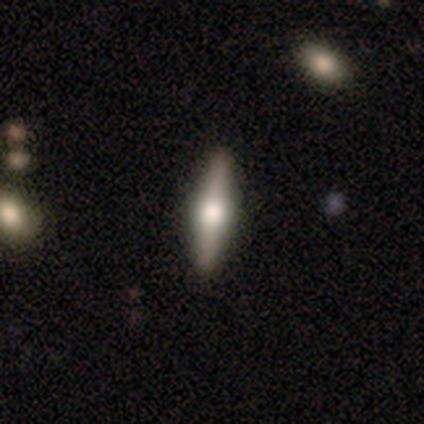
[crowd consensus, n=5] This is clearly a featured or disk galaxy (80%). It is clearly viewed edge-on (100%). Edge-on bulge: clearly rounded (100%). Merging: likely none (60%).